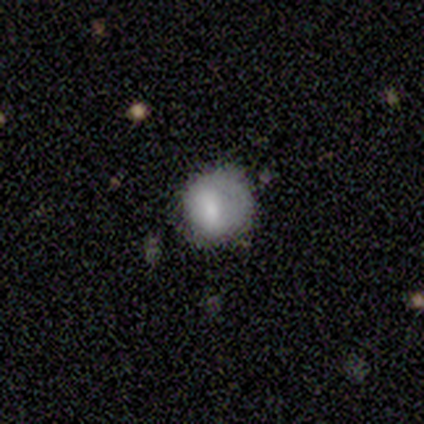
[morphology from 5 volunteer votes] smooth-or-featured: smooth: 80% | featured or disk: 20% | star or artifact: 0%
  how-rounded: round: 100% | in between: 0% | cigar-shaped: 0%
  merging: none: 100% | minor disturbance: 0% | major disturbance: 0% | merger: 0%